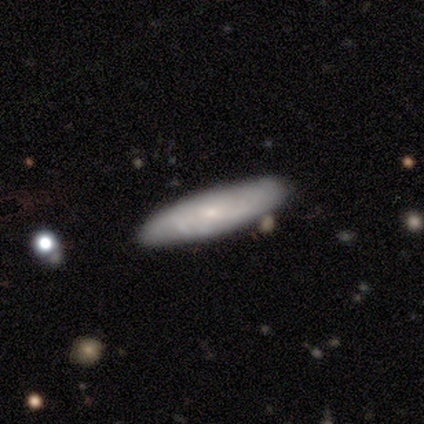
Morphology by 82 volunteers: smooth_or_featured: smooth (p=0.54) [alt: featured or disk p=0.41]
how_rounded: cigar-shaped (p=0.86) [alt: in between p=0.14]
merging: none (p=0.86) [alt: minor disturbance p=0.13]